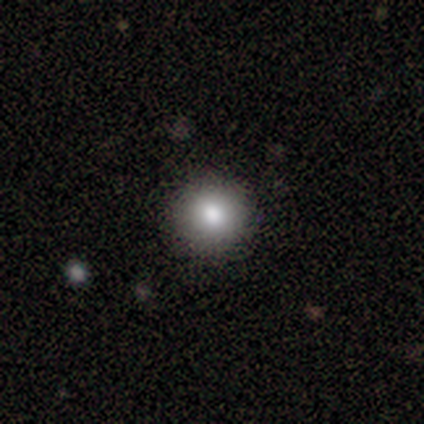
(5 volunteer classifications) A smooth galaxy with no disk features (60%) that is round (100%). Merging: none (100%).